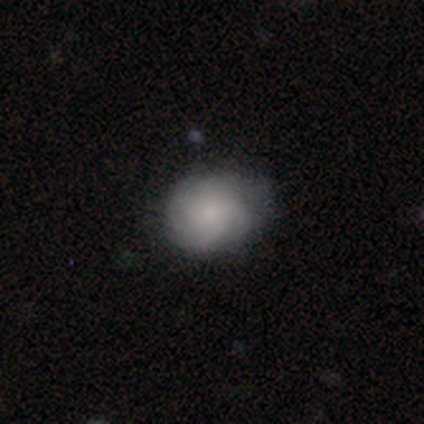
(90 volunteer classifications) Overall: smooth (49%; featured or disk 44%). How rounded: round (64%; in between 36%). Merging: none (67%; minor disturbance 29%).